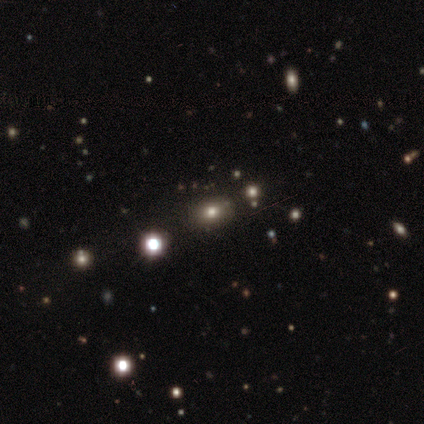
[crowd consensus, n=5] smooth_or_featured: smooth (p=0.60) [alt: star or artifact p=0.40]
how_rounded: in between (p=0.67) [alt: round p=0.33]
merging: none (p=1.00)